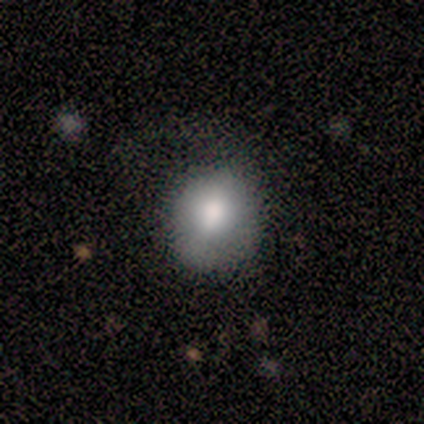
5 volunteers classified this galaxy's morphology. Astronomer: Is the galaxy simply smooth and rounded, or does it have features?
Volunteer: smooth — 40%, tied with featured or disk at 40%.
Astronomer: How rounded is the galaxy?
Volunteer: round — 50%, tied with in between at 50%.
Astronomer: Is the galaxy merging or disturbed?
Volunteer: major disturbance — 50%.